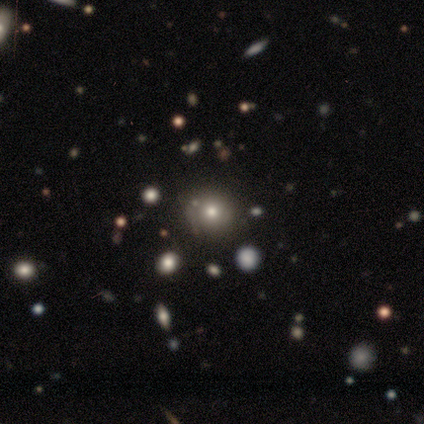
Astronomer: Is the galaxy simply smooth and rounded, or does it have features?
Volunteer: smooth — 100%.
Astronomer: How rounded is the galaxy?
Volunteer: round — 80%.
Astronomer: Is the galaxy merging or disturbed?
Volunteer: none — 80%.